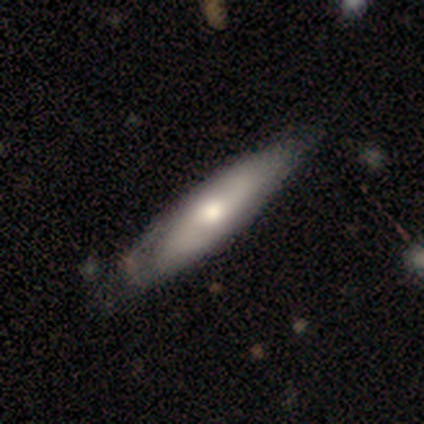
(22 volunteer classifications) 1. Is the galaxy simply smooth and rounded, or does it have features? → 50% featured or disk, 45% smooth, 5% star or artifact.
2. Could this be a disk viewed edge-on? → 55% no, 45% yes.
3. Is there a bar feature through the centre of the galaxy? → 83% no, 17% weak, 0% strong.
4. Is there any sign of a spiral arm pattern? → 67% no, 33% yes.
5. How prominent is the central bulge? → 67% moderate, 33% small, 0% dominant, 0% large, 0% none.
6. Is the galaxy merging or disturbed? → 62% none, 33% minor disturbance, 5% major disturbance, 0% merger.